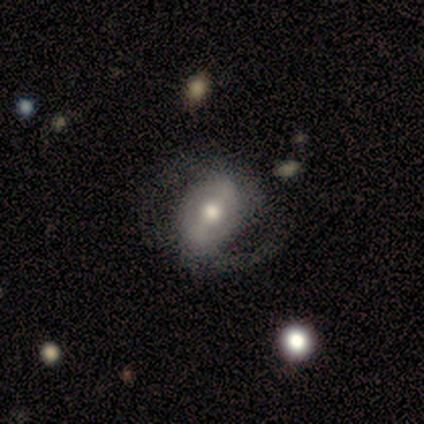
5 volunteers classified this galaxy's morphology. This appears to be a featured or disk galaxy (80%) with a strong bar (50%, tied with weak), 2 (100%) medium (75%) spiral arms (100%) and a moderate central bulge (75%). Merging: none (75%).